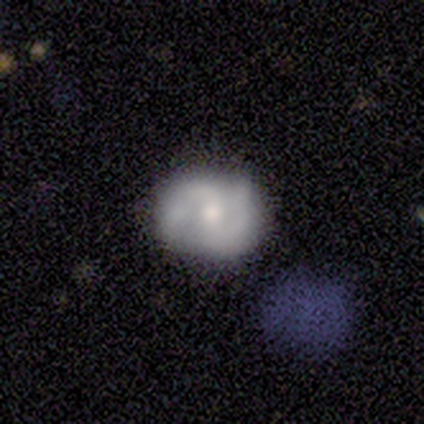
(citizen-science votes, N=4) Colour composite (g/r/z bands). It shows a featured or disk galaxy (75%) with a weak bar (67%), 2 (100%) medium (100%) spiral arms (100%) and a moderate central bulge (67%). Merging: none (75%).